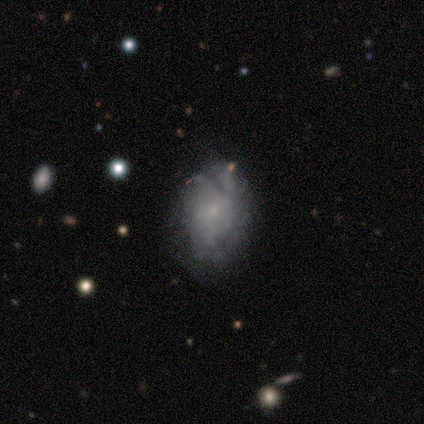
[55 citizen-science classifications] Smooth or featured: featured or disk — 64% (smooth — 31%)
Edge-on disk: no — 100%
Bar: no — 77% (weak — 20%)
Spiral arms: yes — 69% (no — 31%)
Spiral winding: medium — 42% (tight — 38%)
Spiral arm count: can't tell — 58% (3 — 25%)
Bulge size: small — 66% (moderate — 17%)
Merging: none — 42% (minor disturbance — 33%)